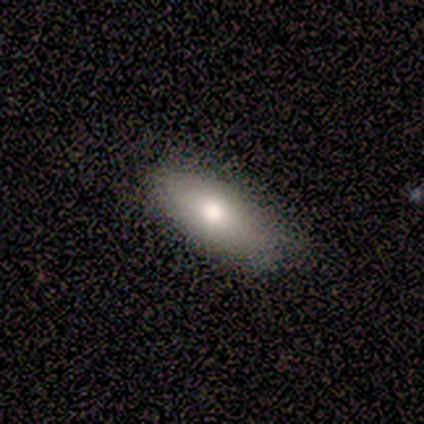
This is likely a smooth galaxy (60%). How rounded: clearly in between (100%). Merging: clearly none (80%).